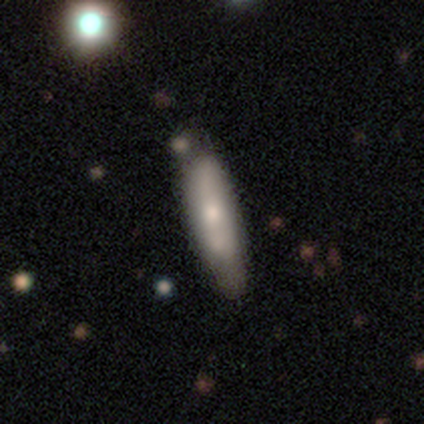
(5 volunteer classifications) Volunteers were most divided on "spiral arms" (2-way tie): yes: 50%, no: 50%. More confident: bar — no (100%); spiral winding — medium (100%); spiral arm count — 2 (100%); bulge size — small (100%); merging — none (80%); edge-on disk — no (67%); smooth or featured — featured or disk (60%).